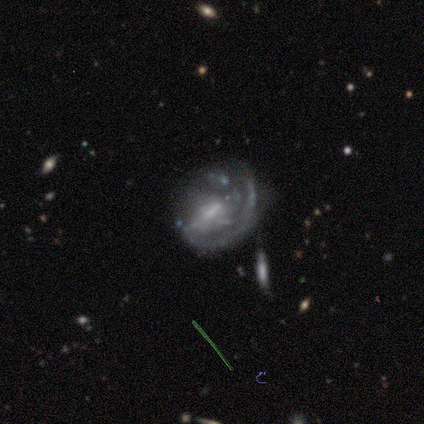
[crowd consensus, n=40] smooth_or_featured: featured or disk (p=0.93) [alt: star or artifact p=0.05]
disk_edge_on: no (p=1.00)
bar: weak (p=0.51) [alt: strong p=0.32]
has_spiral_arms: yes (p=0.76) [alt: no p=0.24]
spiral_winding: medium (p=0.39) [alt: loose p=0.36]
spiral_arm_count: 1 (p=0.50) [alt: can't tell p=0.39]
bulge_size: small (p=0.41) [alt: none p=0.30]
merging: major disturbance (p=0.37) [alt: none p=0.34]